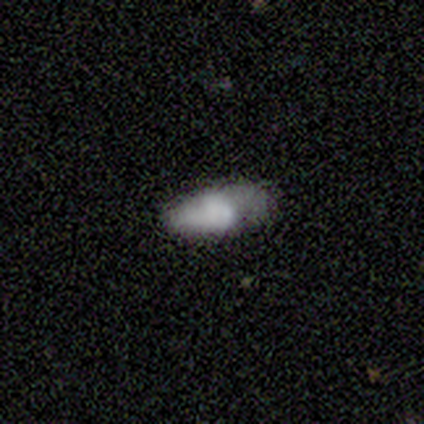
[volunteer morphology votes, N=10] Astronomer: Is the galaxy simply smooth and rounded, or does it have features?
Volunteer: smooth — 70%.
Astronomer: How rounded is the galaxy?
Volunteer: in between — 86%.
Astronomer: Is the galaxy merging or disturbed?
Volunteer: none — 44%, tied with minor disturbance at 44%.